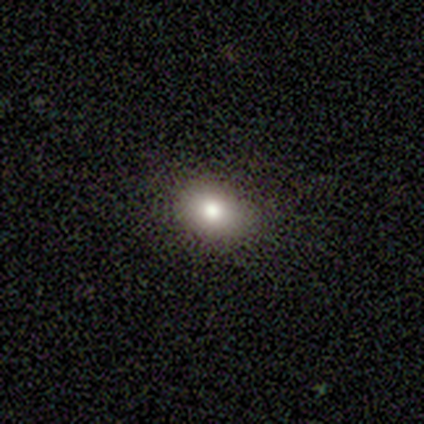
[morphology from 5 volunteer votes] Smooth or featured? smooth (100%)
How rounded? in between (80%)
Merging? none (80%)